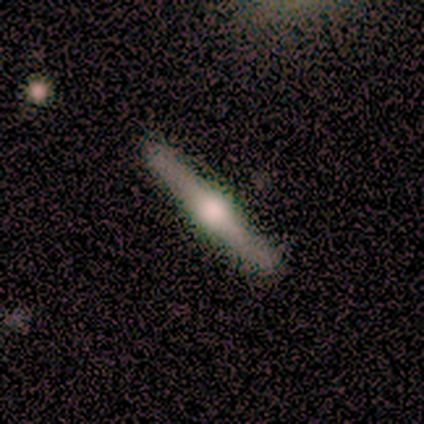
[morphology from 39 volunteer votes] A featured or disk galaxy (79%) viewed edge-on (100%) with a rounded central bulge (100%). Merging: none (82%).